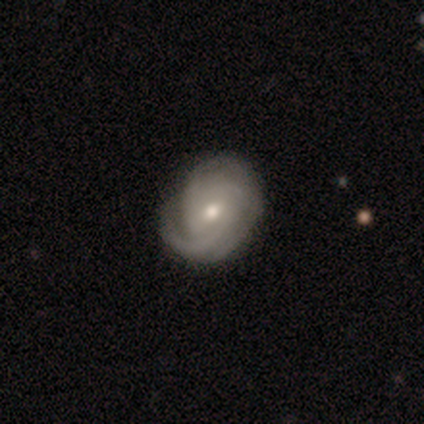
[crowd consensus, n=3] featured or disk 67%, smooth 33%, star or artifact 0%. Down the decision tree: edge-on disk — no (100%); bar — weak (100%); spiral arms — yes (100%); spiral arm count — 1 (50%, tied with 2); spiral winding — tight (100%); bulge size — small (100%); merging — none (67%).